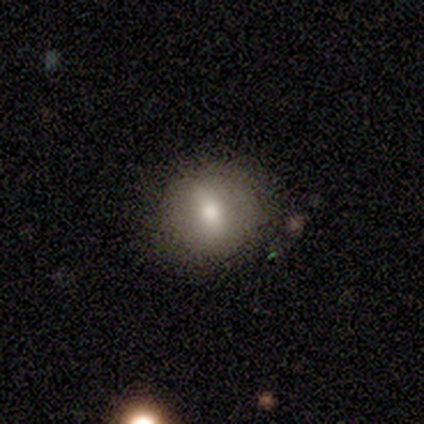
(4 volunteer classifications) This is likely a smooth galaxy (75%). How rounded: clearly round (100%). Merging: clearly none (100%).